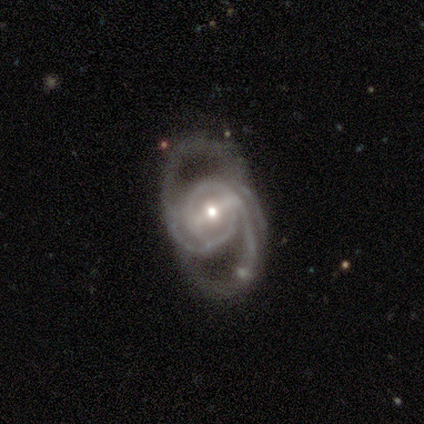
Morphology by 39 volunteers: Smooth or featured? featured or disk (100%)
Edge-on disk? no (92%)
Bar? strong (61%)
Spiral arms? yes (100%)
Spiral winding? medium (61%)
Spiral arm count? 2 (81%)
Bulge size? moderate (56%)
Merging? none (54%)